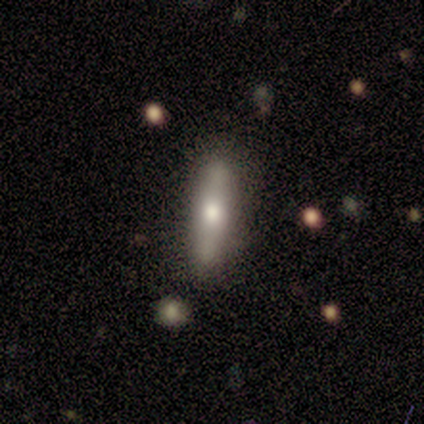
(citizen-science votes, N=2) Morphology: type=smooth (50%, tied with featured or disk); roundness=in between (100%); merging=none (50%, tied with minor disturbance).